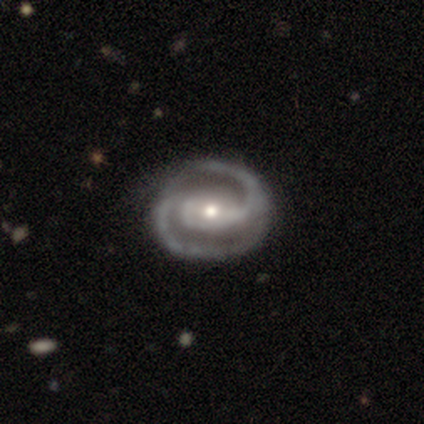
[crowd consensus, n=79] This is clearly a featured or disk galaxy (94%). It is clearly not viewed edge-on (100%). Bar: possibly strong (46%). Spiral arm pattern: clearly yes (99%). Spiral arm count: clearly 2 (100%). Spiral winding: possibly medium (51%). Central bulge: possibly moderate (59%). Merging: possibly none (52%).